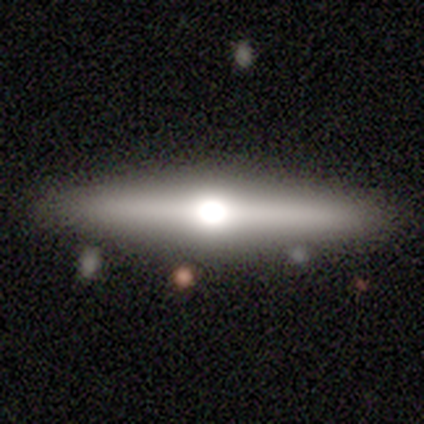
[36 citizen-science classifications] Smooth or featured?
  - featured or disk: 81% *
  - smooth: 17%
  - star or artifact: 3%
Edge-on disk?
  - yes: 97% *
  - no: 3%
Edge-on bulge?
  - rounded: 100% *
  - boxy: 0%
  - none: 0%
Merging?
  - none: 77% *
  - minor disturbance: 17%
  - major disturbance: 3%
  - merger: 3%